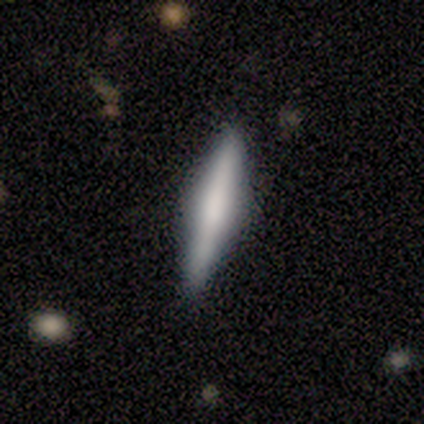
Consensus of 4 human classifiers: Smooth or featured? 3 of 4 (75%) said smooth. How rounded? 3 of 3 (100%) said cigar-shaped. Merging? 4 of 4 (100%) said none.